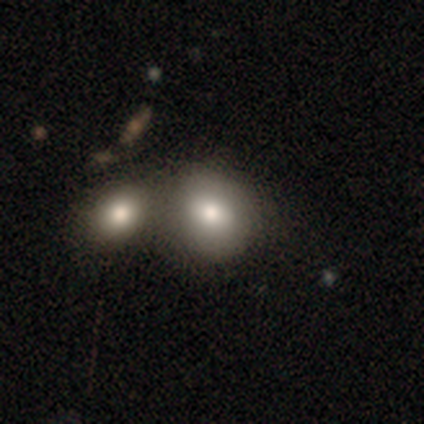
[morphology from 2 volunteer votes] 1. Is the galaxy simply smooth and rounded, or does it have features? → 100% smooth, 0% featured or disk, 0% star or artifact.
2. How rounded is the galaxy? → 100% round, 0% in between, 0% cigar-shaped.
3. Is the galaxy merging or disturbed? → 100% merger, 0% none, 0% minor disturbance, 0% major disturbance.